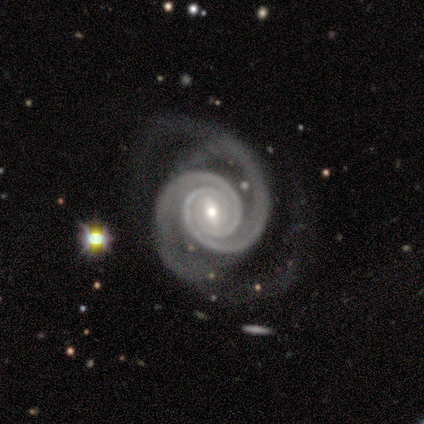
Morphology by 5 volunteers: Volunteers were most divided on "bar" (2-way tie): weak: 40%, no: 40%, strong: 20%. More confident: smooth or featured — featured or disk (100%); edge-on disk — no (100%); spiral arms — yes (100%); bulge size — small (80%); spiral winding — medium (60%); spiral arm count — 2 (60%); merging — minor disturbance (60%).